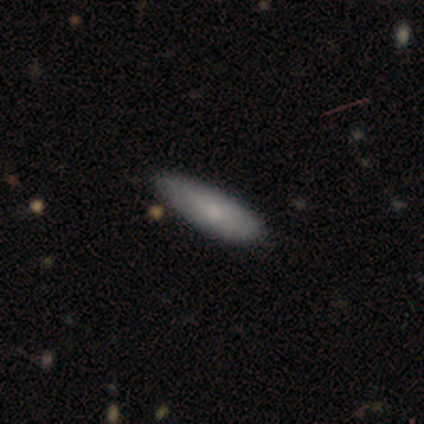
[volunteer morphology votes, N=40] Smooth or featured: smooth — 68% (featured or disk — 25%)
How rounded: cigar-shaped — 63% (in between — 37%)
Merging: none — 76% (minor disturbance — 24%)